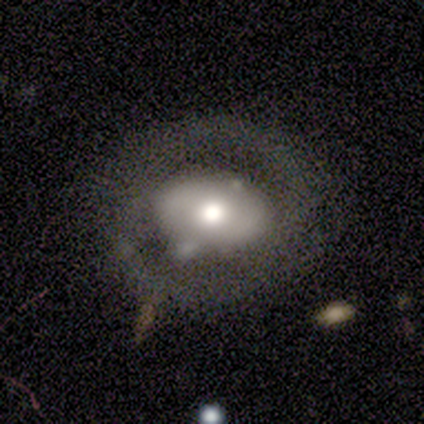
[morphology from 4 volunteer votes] Smooth or featured?
  - smooth: 50% *
  - featured or disk: 25%
  - star or artifact: 25%
How rounded?
  - in between: 100% *
  - round: 0%
  - cigar-shaped: 0%
Merging?
  - none: 100% *
  - minor disturbance: 0%
  - major disturbance: 0%
  - merger: 0%